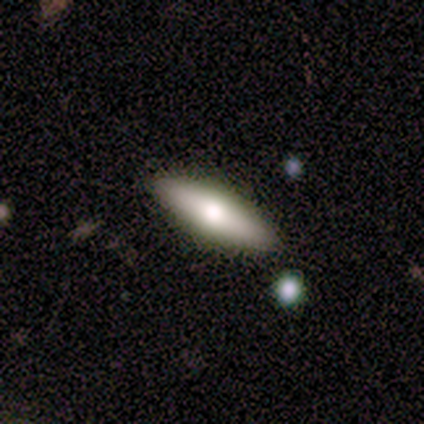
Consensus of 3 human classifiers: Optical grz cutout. It shows a featured or disk galaxy (67%) viewed edge-on (100%) with a rounded central bulge (100%). Merging: none (100%).